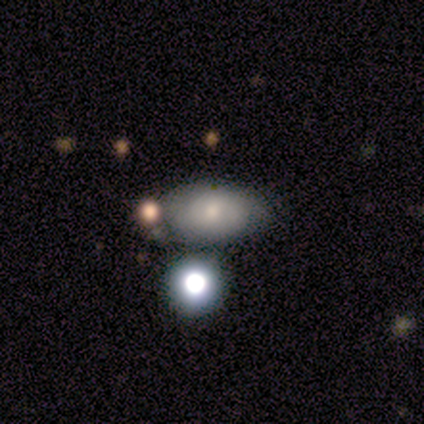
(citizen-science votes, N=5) Smooth or featured: smooth — 80% (featured or disk — 20%)
How rounded: in between — 75% (round — 25%)
Merging: none — 80% (minor disturbance — 20%)